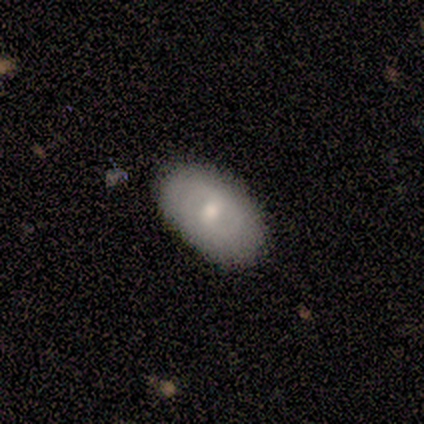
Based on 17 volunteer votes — featured or disk 53%, smooth 35%, star or artifact 12%. Down the decision tree: edge-on disk — no (67%); bar — weak (67%); spiral arms — yes (83%); spiral arm count — 2 (80%); spiral winding — tight (60%); bulge size — moderate (50%, tied with small); merging — none (93%).